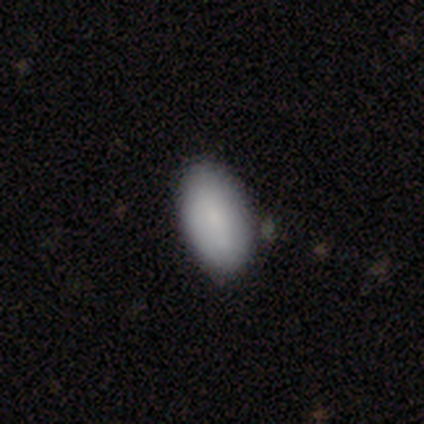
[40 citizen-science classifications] This is clearly a smooth galaxy (85%). How rounded: clearly in between (100%). Merging: likely none (63%).